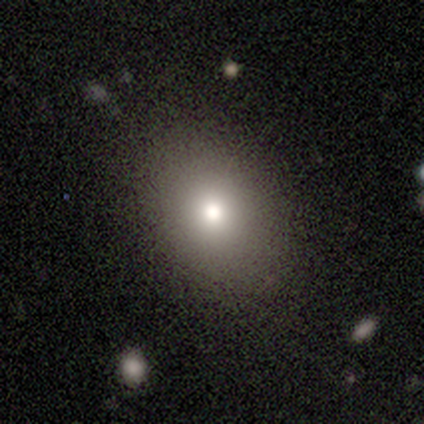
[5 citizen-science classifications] Smooth or featured? smooth (100%)
How rounded? in between (60%)
Merging? none (80%)